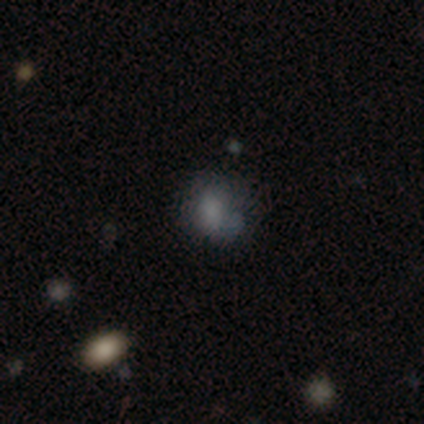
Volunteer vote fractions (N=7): Smooth or featured? 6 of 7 (86%) said smooth. How rounded? 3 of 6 (50%, tied with in between) said round. Merging? 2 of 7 (29%, tied with major disturbance and merger) said none.